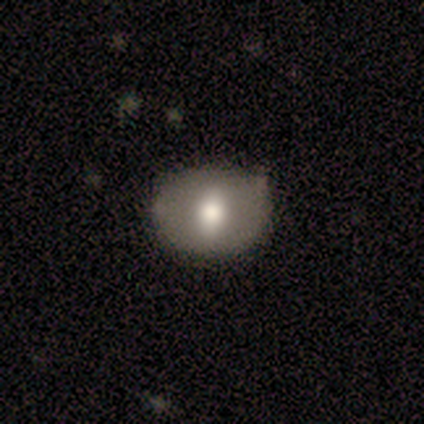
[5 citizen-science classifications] Smooth or featured?
  - smooth: 60% *
  - featured or disk: 20%
  - star or artifact: 20%
How rounded?
  - in between: 67% *
  - round: 33%
  - cigar-shaped: 0%
Merging?
  - none: 75% *
  - minor disturbance: 25%
  - major disturbance: 0%
  - merger: 0%